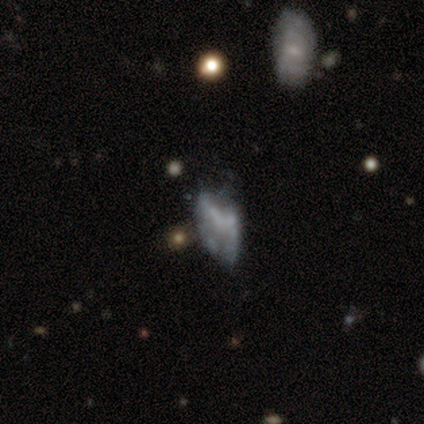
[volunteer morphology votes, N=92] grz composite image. It shows a featured or disk galaxy (52%) with no bar (87%), no spiral arms (93%) and no central bulge (87%). Merging: major disturbance (34%).